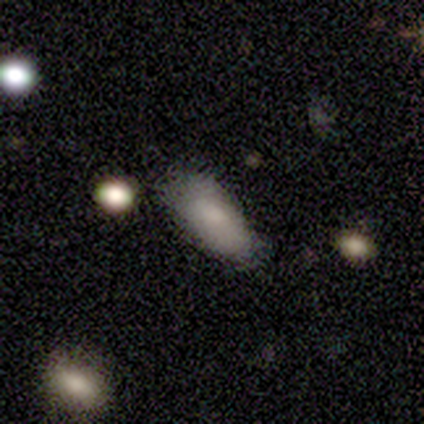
Smooth or featured? smooth (74%)
How rounded? in between (79%)
Merging? none (62%)